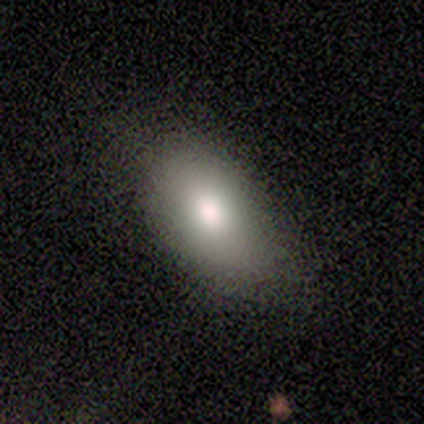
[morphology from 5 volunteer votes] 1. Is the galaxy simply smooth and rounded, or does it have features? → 60% smooth, 20% featured or disk, 20% star or artifact.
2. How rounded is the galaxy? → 100% in between, 0% round, 0% cigar-shaped.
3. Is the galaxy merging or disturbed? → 75% none, 25% minor disturbance, 0% major disturbance, 0% merger.